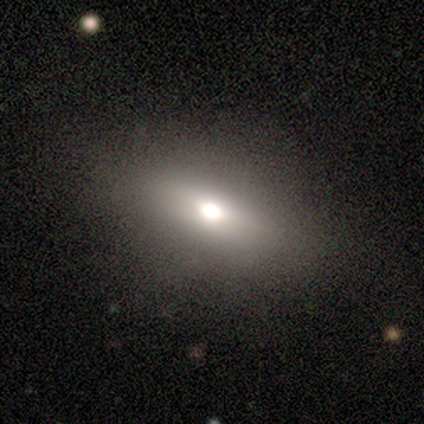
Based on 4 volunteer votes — Overall: featured or disk (100%). Edge-on disk: no (100%). Bar: no (75%). Spiral arms: no (100%). Bulge size: moderate (100%). Merging: none (100%).